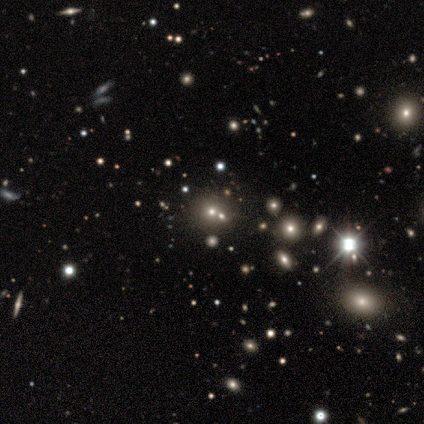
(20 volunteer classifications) A star or artifact, not a galaxy (60%).